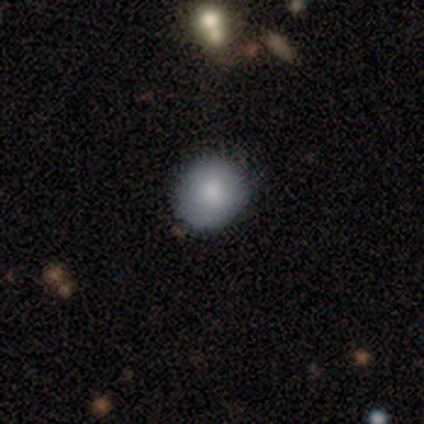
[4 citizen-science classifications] This is likely a smooth galaxy (75%). How rounded: clearly round (100%). Merging: likely none (67%).